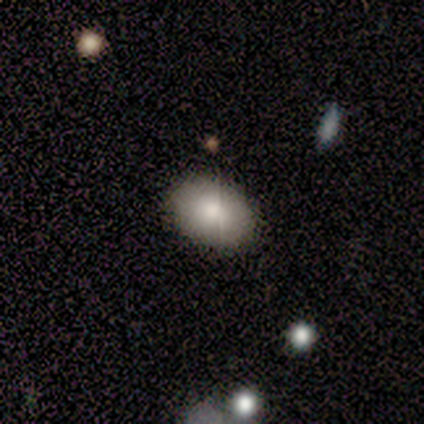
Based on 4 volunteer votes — Overall: smooth (75%). How rounded: in between (100%). Merging: none (100%).